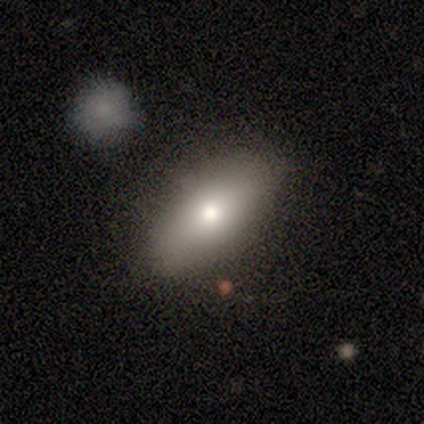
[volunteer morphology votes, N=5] This appears to be a smooth galaxy with no disk features (60%) that is in between round and cigar-shaped (100%). Merging: none (80%).